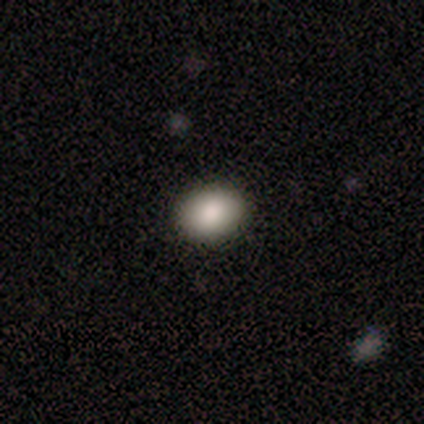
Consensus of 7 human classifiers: Smooth or featured?
  - smooth: 100% *
  - featured or disk: 0%
  - star or artifact: 0%
How rounded?
  - in between: 86% *
  - round: 14%
  - cigar-shaped: 0%
Merging?
  - none: 86% *
  - minor disturbance: 14%
  - major disturbance: 0%
  - merger: 0%